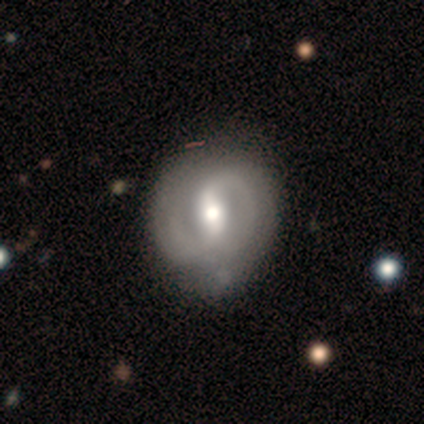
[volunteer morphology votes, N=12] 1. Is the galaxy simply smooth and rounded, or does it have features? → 100% featured or disk, 0% smooth, 0% star or artifact.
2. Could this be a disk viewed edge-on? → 100% no, 0% yes.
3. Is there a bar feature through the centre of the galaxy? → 50% strong, 42% weak, 8% no.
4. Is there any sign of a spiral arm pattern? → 92% yes, 8% no.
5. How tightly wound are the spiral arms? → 55% tight, 45% medium, 0% loose.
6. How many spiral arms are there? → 91% 2, 9% can't tell, 0% 1, 0% 3, 0% 4, 0% more than 4.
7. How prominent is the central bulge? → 58% moderate, 25% large, 17% small, 0% dominant, 0% none.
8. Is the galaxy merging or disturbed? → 75% none, 25% minor disturbance, 0% major disturbance, 0% merger.